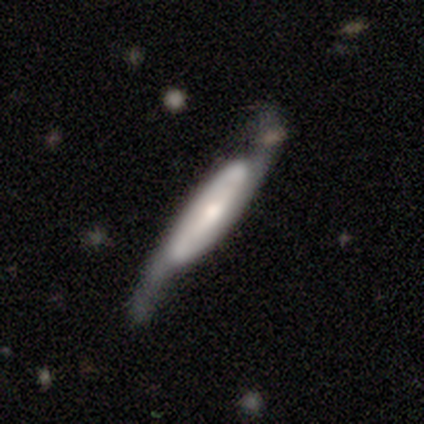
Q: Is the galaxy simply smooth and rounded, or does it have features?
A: featured or disk — 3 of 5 (60%).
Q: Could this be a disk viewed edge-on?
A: no — 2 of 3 (67%).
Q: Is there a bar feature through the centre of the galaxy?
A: strong — 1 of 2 (50%, tied with no).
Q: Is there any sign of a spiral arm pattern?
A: yes — 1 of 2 (50%, tied with no).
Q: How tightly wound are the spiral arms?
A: loose — 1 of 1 (100%).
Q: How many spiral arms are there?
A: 2 — 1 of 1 (100%).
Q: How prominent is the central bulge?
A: moderate — 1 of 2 (50%, tied with small).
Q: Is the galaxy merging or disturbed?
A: none — 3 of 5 (60%).